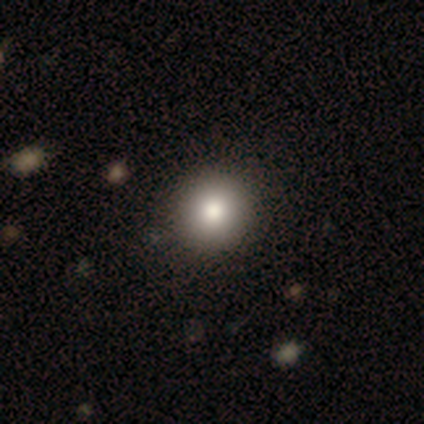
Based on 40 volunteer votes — Smooth or featured?
  - smooth: 90% *
  - featured or disk: 8%
  - star or artifact: 2%
How rounded?
  - round: 94% *
  - in between: 6%
  - cigar-shaped: 0%
Merging?
  - none: 64% *
  - minor disturbance: 3%
  - major disturbance: 0%
  - merger: 0%